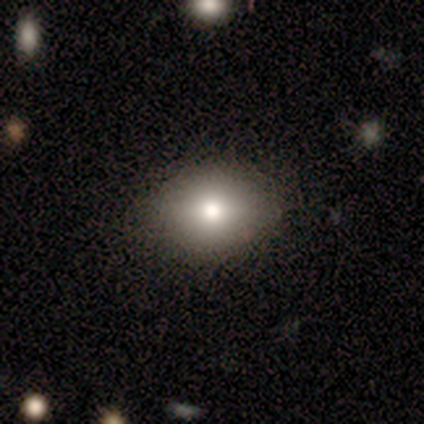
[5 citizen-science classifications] Overall: smooth (80%). How rounded: in between (75%). Merging: minor disturbance (75%).